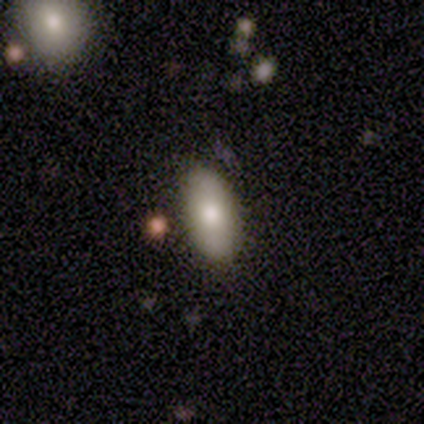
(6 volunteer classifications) Smooth or featured?
  - smooth: 83% *
  - star or artifact: 17%
  - featured or disk: 0%
How rounded?
  - in between: 100% *
  - round: 0%
  - cigar-shaped: 0%
Merging?
  - none: 100% *
  - minor disturbance: 0%
  - major disturbance: 0%
  - merger: 0%